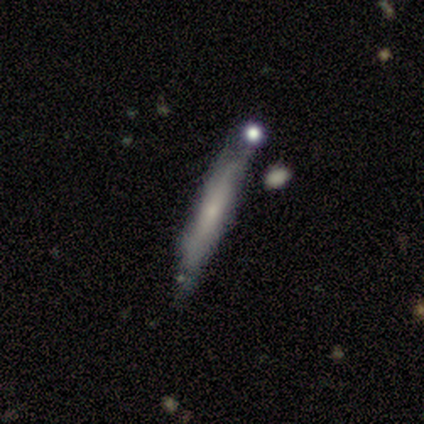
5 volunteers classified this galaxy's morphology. This appears to be a smooth galaxy with no disk features (60%) that is cigar-shaped (100%). Merging: none (50%).